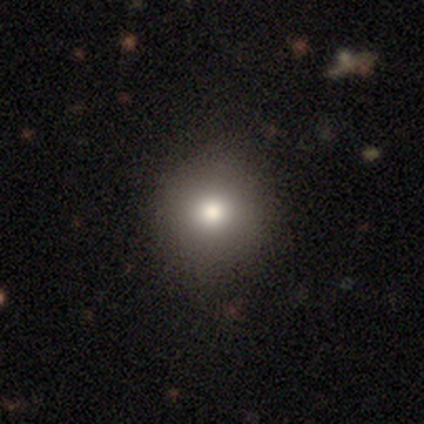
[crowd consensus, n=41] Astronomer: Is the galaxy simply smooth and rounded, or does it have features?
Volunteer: smooth — 73%.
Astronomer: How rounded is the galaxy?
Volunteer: round — 90%.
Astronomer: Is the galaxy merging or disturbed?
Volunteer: none — 94%.